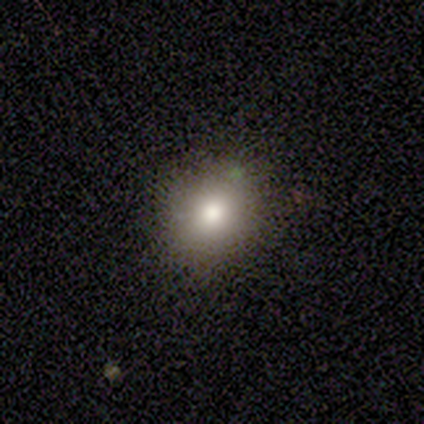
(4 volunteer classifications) smooth-or-featured: smooth: 75% | star or artifact: 25% | featured or disk: 0%
  how-rounded: round: 100% | in between: 0% | cigar-shaped: 0%
  merging: none: 100% | minor disturbance: 0% | major disturbance: 0% | merger: 0%